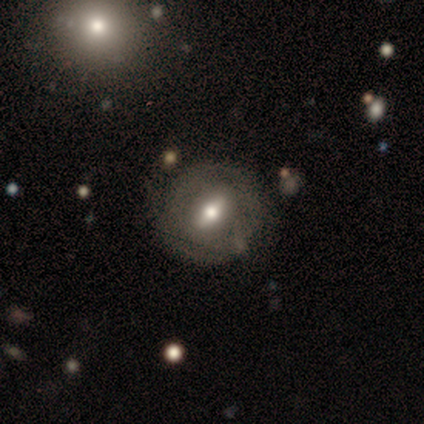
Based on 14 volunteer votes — Volunteers were most divided on "bar": weak: 60%, strong: 20%, no: 20%. More confident: edge-on disk — no (91%); bulge size — moderate (90%); spiral arms — no (80%); smooth or featured — featured or disk (79%); merging — none (75%).